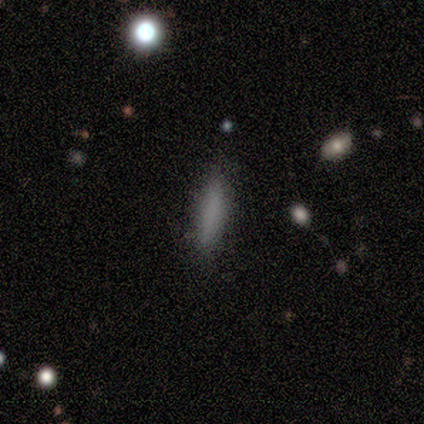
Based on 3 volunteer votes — Volunteers were most divided on "smooth or featured": smooth: 67%, star or artifact: 33%, featured or disk: 0%. More confident: how rounded — cigar-shaped (100%); merging — none (100%).